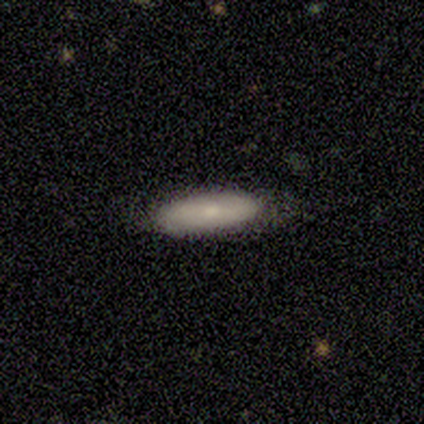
smooth-or-featured: smooth: 80% | featured or disk: 20% | star or artifact: 0%
  how-rounded: in between: 50% (tied) | cigar-shaped: 50% (tied) | round: 0%
  merging: none: 80% | minor disturbance: 20% | major disturbance: 0% | merger: 0%